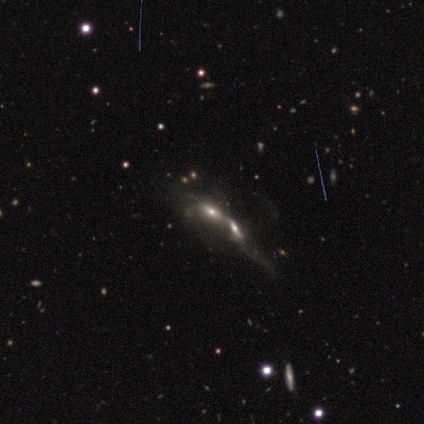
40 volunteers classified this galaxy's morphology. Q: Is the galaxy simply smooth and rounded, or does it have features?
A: featured or disk — 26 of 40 (65%).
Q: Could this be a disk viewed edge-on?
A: no — 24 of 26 (92%).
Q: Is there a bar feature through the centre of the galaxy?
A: no — 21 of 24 (88%).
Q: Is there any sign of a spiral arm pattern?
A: no — 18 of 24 (75%).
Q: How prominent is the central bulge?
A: moderate — 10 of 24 (42%).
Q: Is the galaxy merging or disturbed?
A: merger — 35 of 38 (92%).